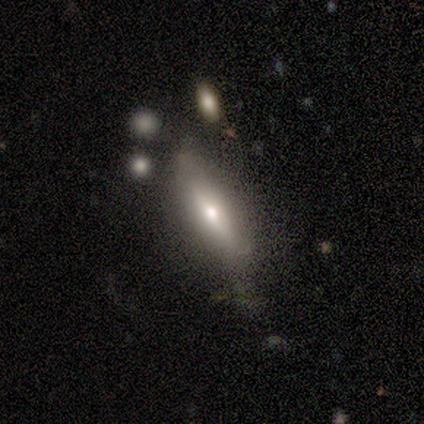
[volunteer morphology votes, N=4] Smooth or featured?
  - featured or disk: 50% *
  - smooth: 25%
  - star or artifact: 25%
Edge-on disk?
  - yes: 50% * (tied)
  - no: 50% * (tied)
Edge-on bulge?
  - rounded: 100% *
  - boxy: 0%
  - none: 0%
Merging?
  - minor disturbance: 67% *
  - major disturbance: 33%
  - none: 0%
  - merger: 0%